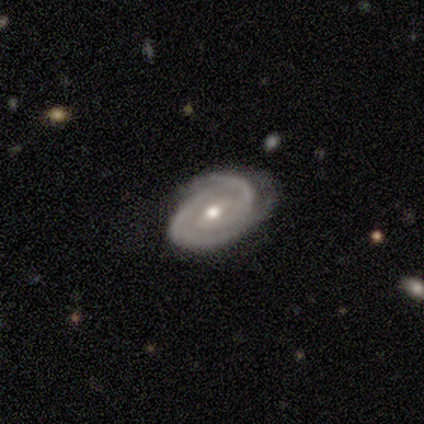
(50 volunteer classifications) Smooth or featured: featured or disk — 98% (smooth — 2%)
Edge-on disk: no — 96% (yes — 4%)
Bar: weak — 51% (no — 45%)
Spiral arms: yes — 100%
Spiral winding: tight — 77% (medium — 21%)
Spiral arm count: 2 — 66% (can't tell — 21%)
Bulge size: moderate — 72% (small — 23%)
Merging: none — 78% (minor disturbance — 18%)